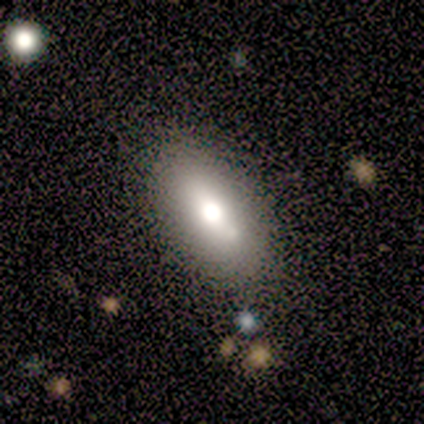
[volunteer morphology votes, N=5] type=smooth (80%); roundness=in between (75%); merging=none (75%).